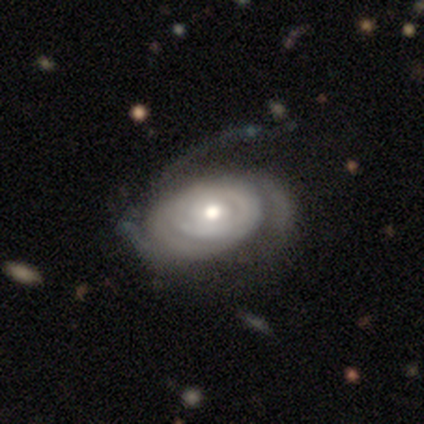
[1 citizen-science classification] featured or disk 100%, smooth 0%, star or artifact 0%. Down the decision tree: edge-on disk — no (100%); bar — weak (100%); spiral arms — yes (100%); spiral arm count — 3 (100%); spiral winding — tight (100%); bulge size — moderate (100%); merging — none (100%).